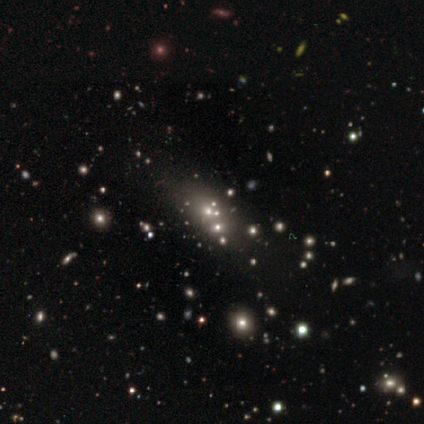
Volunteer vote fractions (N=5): Smooth or featured? 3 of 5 (60%) said star or artifact.